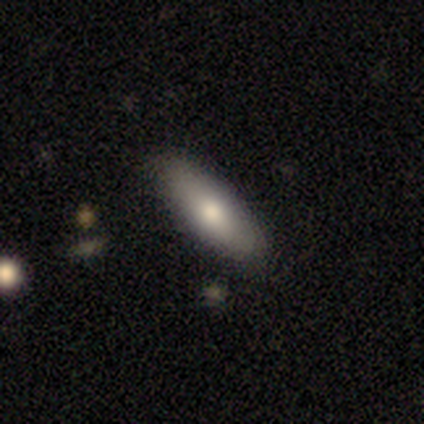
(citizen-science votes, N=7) Smooth or featured: smooth — 86% (star or artifact — 14%)
How rounded: in between — 83% (cigar-shaped — 17%)
Merging: none — 83% (minor disturbance — 17%)